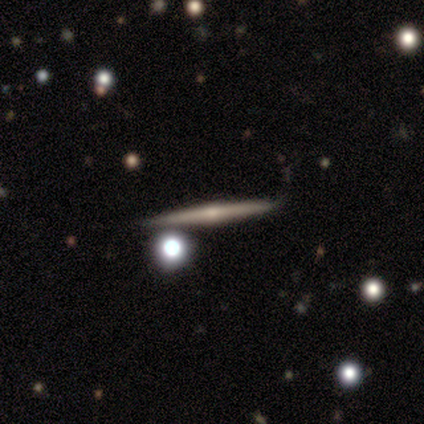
A featured or disk galaxy (78%) viewed edge-on (97%) with a rounded central bulge (74%).

Vote fractions:
- Smooth or featured? featured or disk: 78% / smooth: 14% / star or artifact: 8%
- Edge-on disk? yes: 97% / no: 3%
- Edge-on bulge? rounded: 74% / none: 21% / boxy: 5%
- Merging? none: 80% / merger: 11% / minor disturbance: 7% / major disturbance: 2%